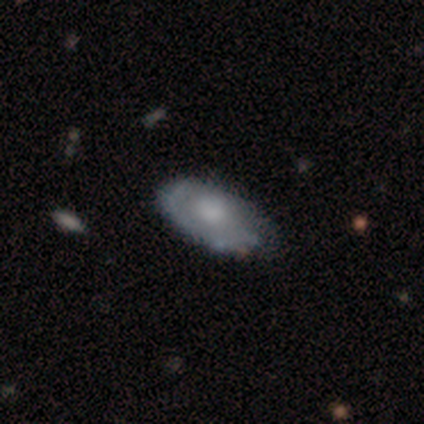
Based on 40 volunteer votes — Overall: featured or disk (55%; smooth 40%). Edge-on disk: no (73%). Bar: no (81%). Spiral arms: yes (69%; no 31%). Spiral arm count: 1 (45%; 2 27%). Spiral winding: tight (55%; loose 27%). Bulge size: moderate (31%; large 25%). Merging: none (71%).